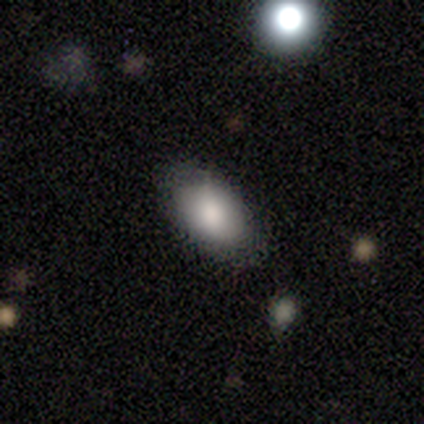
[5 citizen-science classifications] This is clearly a smooth galaxy (100%). How rounded: clearly in between (80%). Merging: clearly none (100%).